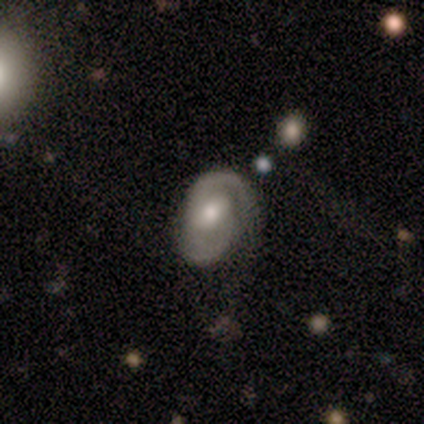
This appears to be a featured or disk galaxy (80%) with a weak bar (75%), 2 (75%) medium (50%) spiral arms (100%) and a small central bulge (50%). Merging: none (100%).